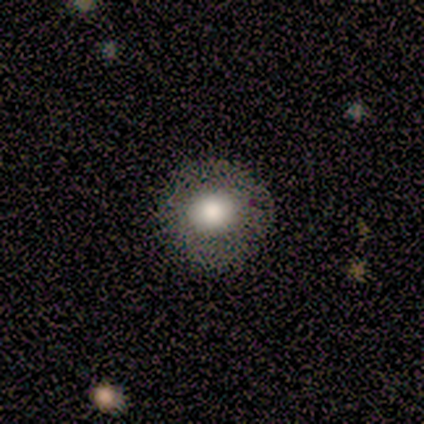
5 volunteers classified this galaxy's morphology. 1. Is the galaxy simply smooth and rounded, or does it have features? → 100% smooth, 0% featured or disk, 0% star or artifact.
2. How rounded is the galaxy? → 80% round, 20% in between, 0% cigar-shaped.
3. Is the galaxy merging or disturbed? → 100% none, 0% minor disturbance, 0% major disturbance, 0% merger.